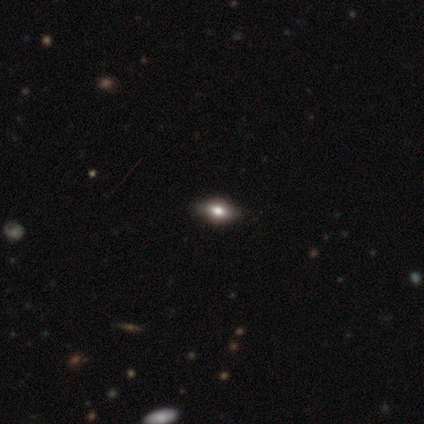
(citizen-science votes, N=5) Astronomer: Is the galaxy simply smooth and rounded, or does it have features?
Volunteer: smooth — 80%.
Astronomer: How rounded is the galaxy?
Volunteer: in between — 75%.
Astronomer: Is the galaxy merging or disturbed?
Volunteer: none — 100%.